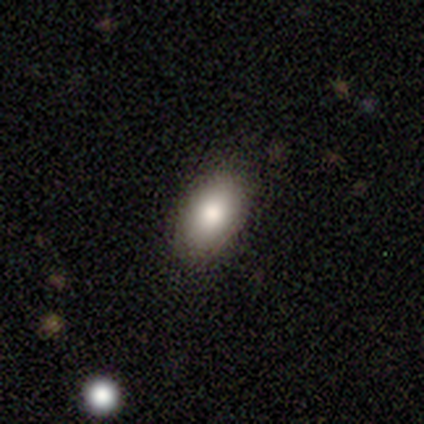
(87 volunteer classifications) Smooth or featured? 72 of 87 (83%) said smooth. How rounded? 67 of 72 (93%) said in between. Merging? 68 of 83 (82%) said none.